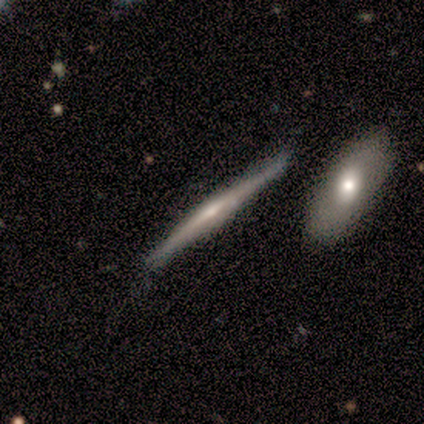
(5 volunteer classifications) Q: Smooth or featured?
A: featured or disk (80%); runner-up: smooth (20%)
Q: Edge-on disk?
A: yes (100%)
Q: Edge-on bulge?
A: none (50%); runner-up: boxy (25%)
Q: Merging?
A: none (80%); runner-up: minor disturbance (20%)